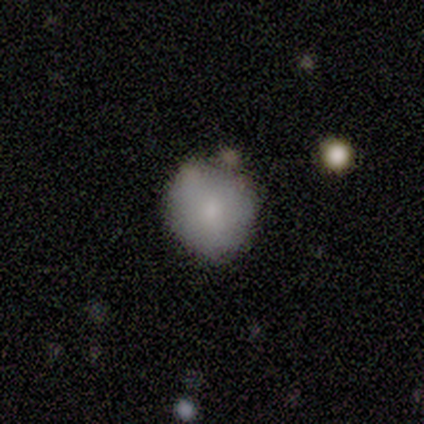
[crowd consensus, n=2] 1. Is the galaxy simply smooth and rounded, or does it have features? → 100% smooth, 0% featured or disk, 0% star or artifact.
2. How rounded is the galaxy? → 100% round, 0% in between, 0% cigar-shaped.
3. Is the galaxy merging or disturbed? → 100% none, 0% minor disturbance, 0% major disturbance, 0% merger.